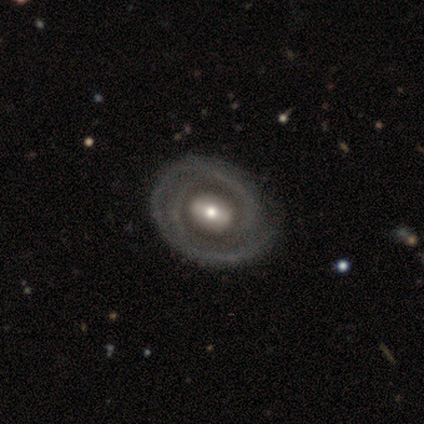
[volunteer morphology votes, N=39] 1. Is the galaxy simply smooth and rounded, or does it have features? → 85% featured or disk, 10% smooth, 5% star or artifact.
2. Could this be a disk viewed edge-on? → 94% no, 6% yes.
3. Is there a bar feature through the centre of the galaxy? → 39% no, 32% weak, 29% strong.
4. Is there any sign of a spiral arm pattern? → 74% yes, 26% no.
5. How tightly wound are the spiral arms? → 78% tight, 13% loose, 9% medium.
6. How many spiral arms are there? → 30% 1 (tied), 30% 2 (tied), 30% can't tell (tied), 9% 3, 0% 4, 0% more than 4.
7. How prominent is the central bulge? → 52% moderate, 26% large, 19% small, 3% dominant, 0% none.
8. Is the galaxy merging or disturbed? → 46% none, 19% minor disturbance, 8% major disturbance, 0% merger.